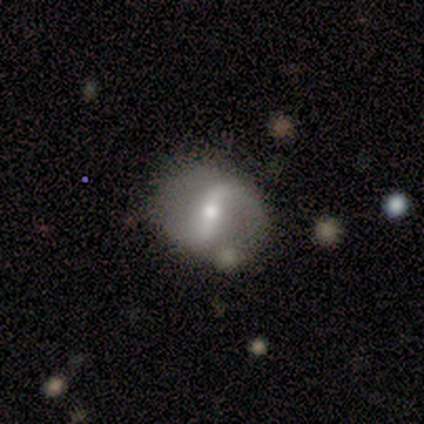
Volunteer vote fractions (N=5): Smooth or featured?
  - featured or disk: 100% *
  - smooth: 0%
  - star or artifact: 0%
Edge-on disk?
  - no: 100% *
  - yes: 0%
Bar?
  - weak: 60% *
  - strong: 40%
  - no: 0%
Spiral arms?
  - yes: 80% *
  - no: 20%
Spiral winding?
  - loose: 75% *
  - medium: 25%
  - tight: 0%
Spiral arm count?
  - 2: 100% *
  - 1: 0%
  - 3: 0%
  - 4: 0%
  - more than 4: 0%
  - can't tell: 0%
Bulge size?
  - small: 60% *
  - moderate: 40%
  - dominant: 0%
  - large: 0%
  - none: 0%
Merging?
  - none: 60% *
  - minor disturbance: 20%
  - merger: 20%
  - major disturbance: 0%